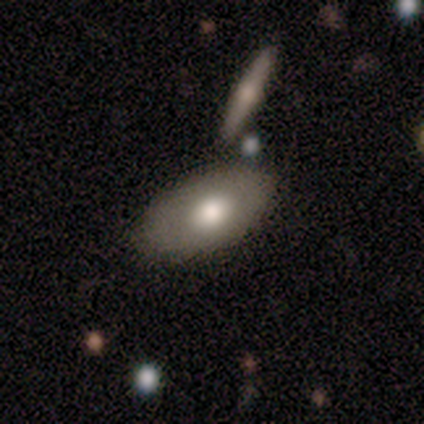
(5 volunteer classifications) Q: Smooth or featured?
A: smooth (80%); runner-up: featured or disk (20%)
Q: How rounded?
A: in between (100%)
Q: Merging?
A: none (100%)